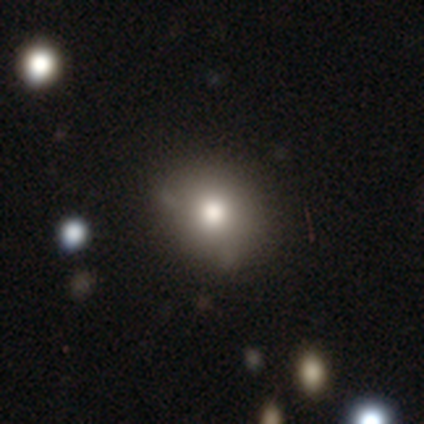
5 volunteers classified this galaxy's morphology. Overall: smooth (100%). How rounded: round (80%). Merging: none (80%).